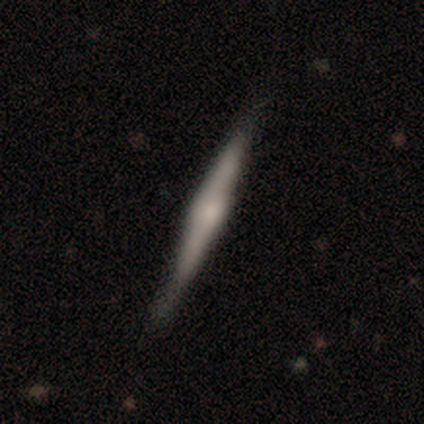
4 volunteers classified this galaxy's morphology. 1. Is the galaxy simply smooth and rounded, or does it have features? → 50% smooth (tied), 50% featured or disk (tied), 0% star or artifact.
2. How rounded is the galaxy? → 100% cigar-shaped, 0% round, 0% in between.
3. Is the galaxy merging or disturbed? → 75% none, 25% minor disturbance, 0% major disturbance, 0% merger.